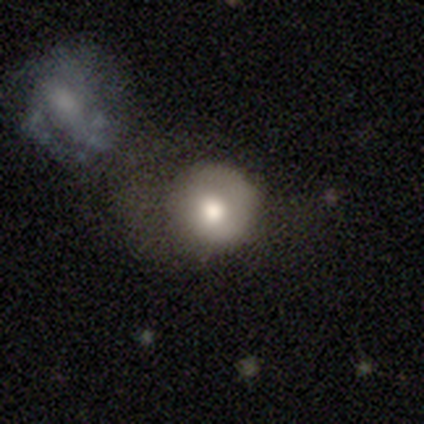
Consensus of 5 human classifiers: smooth_or_featured: smooth (p=0.60) [alt: featured or disk p=0.40]
how_rounded: round (p=1.00)
merging: none (p=0.60) [alt: minor disturbance p=0.20]